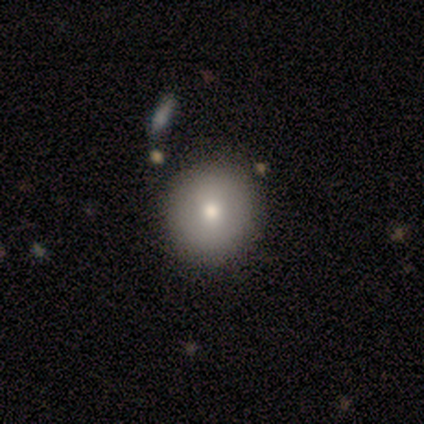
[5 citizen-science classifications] smooth 100%, featured or disk 0%, star or artifact 0%. Down the decision tree: how rounded — round (60%); merging — none (80%).